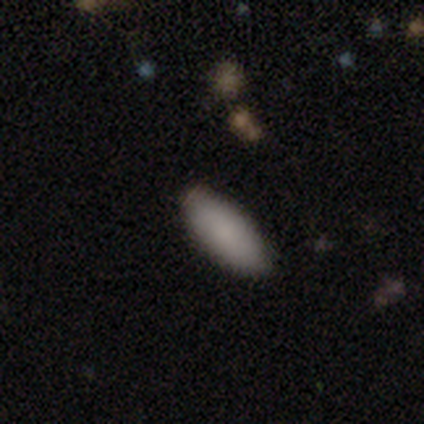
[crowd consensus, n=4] smooth 75%, star or artifact 25%, featured or disk 0%. Down the decision tree: how rounded — in between (100%); merging — none (100%).